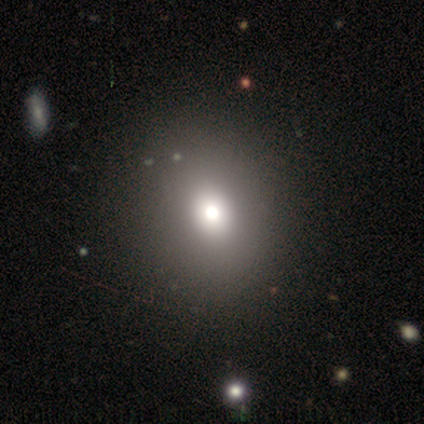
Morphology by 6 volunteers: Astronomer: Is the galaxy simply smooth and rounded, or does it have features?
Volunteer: star or artifact — 67%.